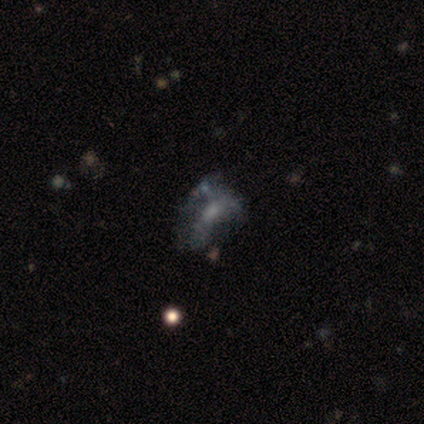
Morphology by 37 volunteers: Smooth or featured: featured or disk — 70% (smooth — 19%)
Edge-on disk: no — 96% (yes — 4%)
Bar: no — 76% (weak — 20%)
Spiral arms: no — 84% (yes — 16%)
Bulge size: small — 44% (none — 40%)
Merging: none — 36% (major disturbance — 30%)